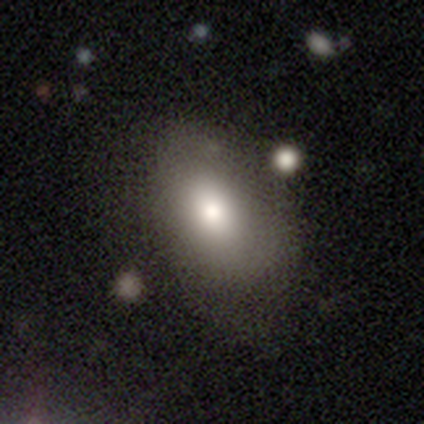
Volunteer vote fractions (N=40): A smooth galaxy with no disk features (90%) that is in between round and cigar-shaped (86%). Merging: none (50%).